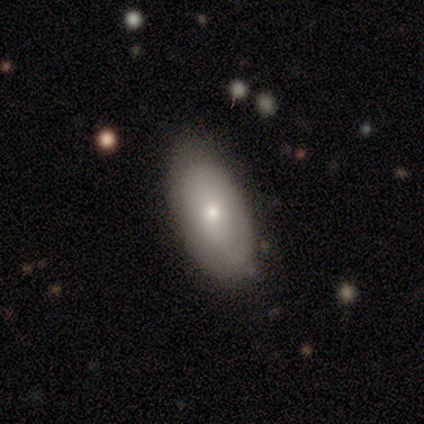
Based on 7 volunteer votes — This appears to be a smooth galaxy with no disk features (71%) that is in between round and cigar-shaped (80%). Merging: none (86%).